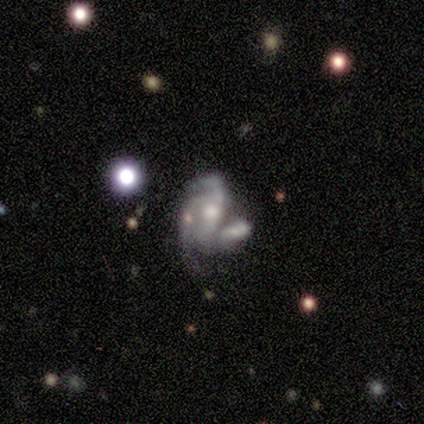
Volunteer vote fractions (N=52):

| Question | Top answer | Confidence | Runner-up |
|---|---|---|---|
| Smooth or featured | featured or disk | 77% | smooth (17%) |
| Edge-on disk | no | 98% | yes (2%) |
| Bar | no | 56% | weak (23%) |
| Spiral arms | yes | 67% | no (33%) |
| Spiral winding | medium | 50% | loose (35%) |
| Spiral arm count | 2 | 38% | 3 (35%) |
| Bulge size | moderate | 44% | small (36%) |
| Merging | merger | 57% | minor disturbance (18%) |